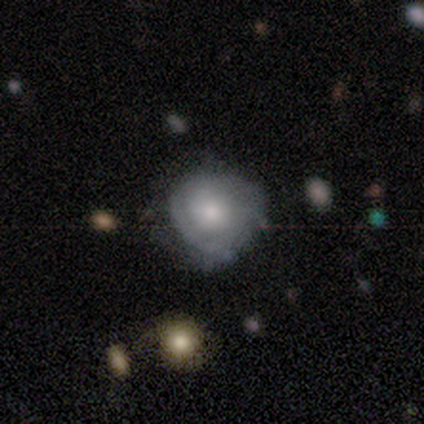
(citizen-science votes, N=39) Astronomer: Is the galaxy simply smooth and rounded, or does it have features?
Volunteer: smooth — 49% (runner-up: featured or disk, 44%).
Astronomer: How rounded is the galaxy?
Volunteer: round — 84%.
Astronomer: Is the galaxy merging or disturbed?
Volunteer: none — 61%.